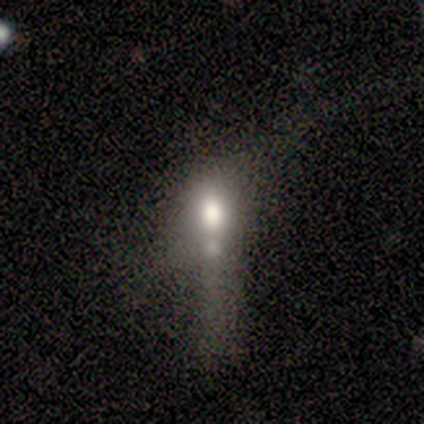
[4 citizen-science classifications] Smooth or featured: smooth — 75% (featured or disk — 25%)
How rounded: in between — 67% (round — 33%)
Merging: minor disturbance — 50% (major disturbance — 25%)